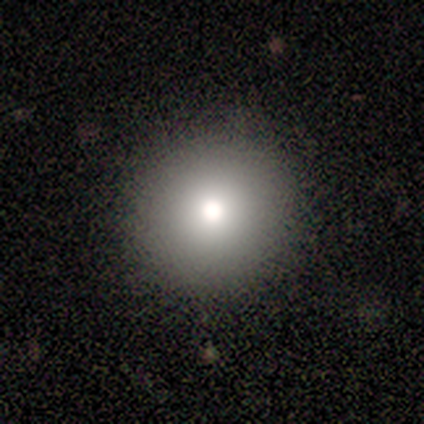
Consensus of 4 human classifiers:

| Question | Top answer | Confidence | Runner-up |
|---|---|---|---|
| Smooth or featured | featured or disk | 50% | smooth (25%) |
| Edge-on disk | no | 100% | — |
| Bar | no | 100% | — |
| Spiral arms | no | 100% | — |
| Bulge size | dominant | 50% | tied: large (50%) |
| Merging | none | 67% | minor disturbance (33%) |